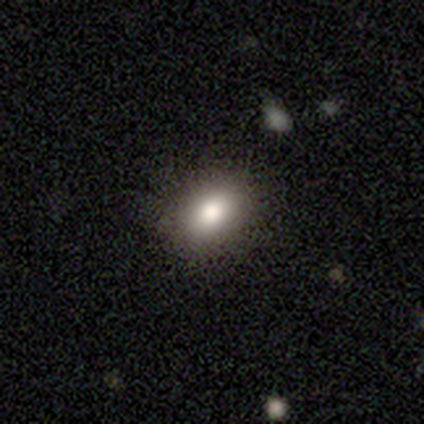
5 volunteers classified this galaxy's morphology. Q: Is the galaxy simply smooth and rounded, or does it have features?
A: smooth — 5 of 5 (100%).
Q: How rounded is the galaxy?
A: in between — 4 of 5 (80%).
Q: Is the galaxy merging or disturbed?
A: none — 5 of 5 (100%).